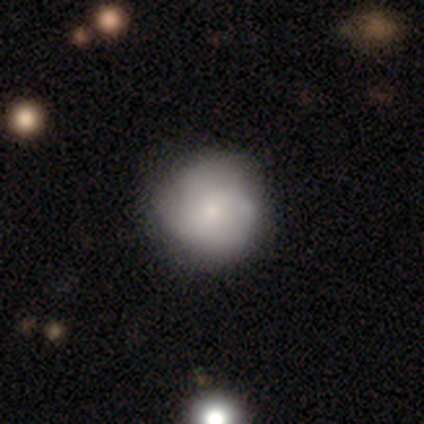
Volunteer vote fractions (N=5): Q: Smooth or featured?
A: smooth (60%); runner-up: featured or disk (40%)
Q: How rounded?
A: round (100%)
Q: Merging?
A: none (60%); runner-up: minor disturbance (40%)